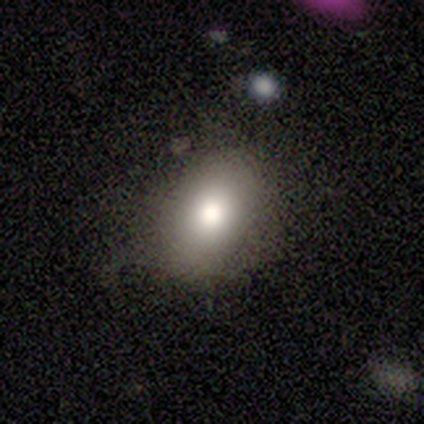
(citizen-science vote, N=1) Smooth or featured: smooth — 100%
How rounded: in between — 100%
Merging: none — 100%